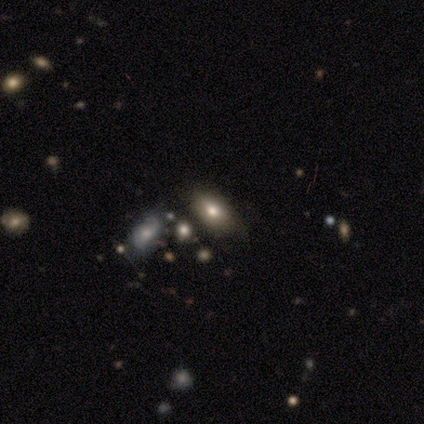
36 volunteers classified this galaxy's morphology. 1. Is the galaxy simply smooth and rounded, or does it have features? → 64% smooth, 19% star or artifact, 17% featured or disk.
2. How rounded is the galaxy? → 91% in between, 9% round, 0% cigar-shaped.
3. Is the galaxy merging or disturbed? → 55% none, 24% minor disturbance, 17% merger, 3% major disturbance.